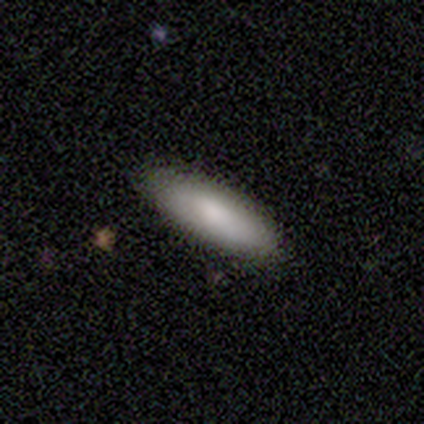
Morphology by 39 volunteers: Overall: smooth (90%). How rounded: cigar-shaped (51%; in between 49%). Merging: none (82%).